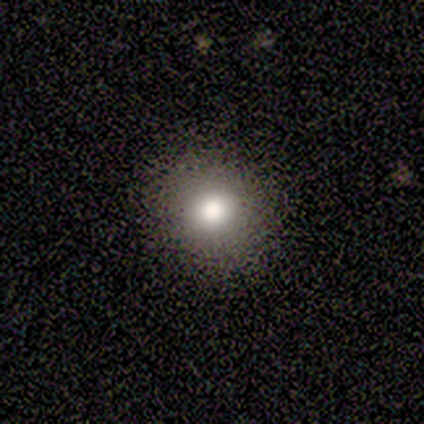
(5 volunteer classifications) smooth 100%, featured or disk 0%, star or artifact 0%. Down the decision tree: how rounded — round (80%); merging — none (100%).